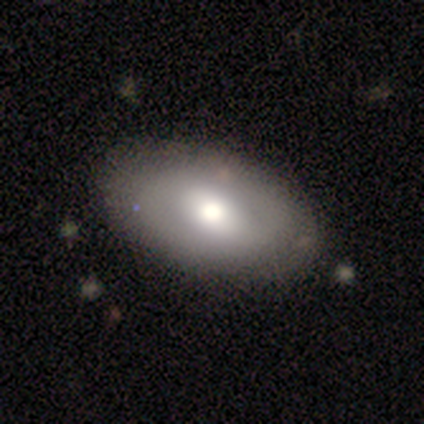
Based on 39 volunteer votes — Morphology: type=smooth (62%); roundness=in between (92%); merging=none (83%).